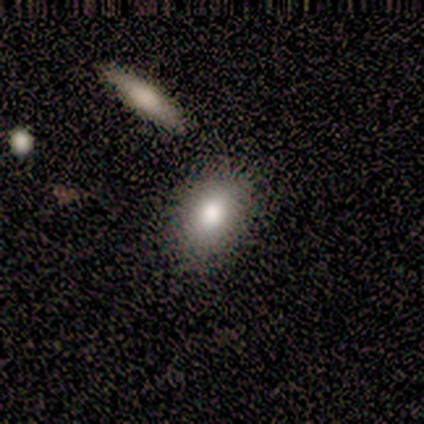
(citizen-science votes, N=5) smooth_or_featured: smooth (p=1.00)
how_rounded: in between (p=0.60) [alt: round p=0.40]
merging: none (p=1.00)